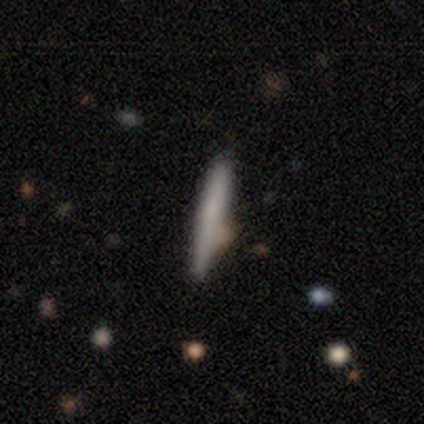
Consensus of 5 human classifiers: smooth_or_featured: featured or disk (p=0.60) [alt: smooth p=0.40]
disk_edge_on: yes (p=1.00)
edge_on_bulge: none (p=0.67) [alt: rounded p=0.33]
merging: none (p=0.80) [alt: merger p=0.20]